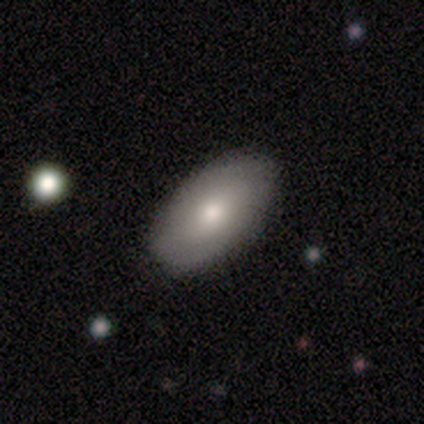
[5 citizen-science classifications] Smooth or featured? 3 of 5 (60%) said smooth. How rounded? 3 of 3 (100%) said in between. Merging? 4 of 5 (80%) said none.